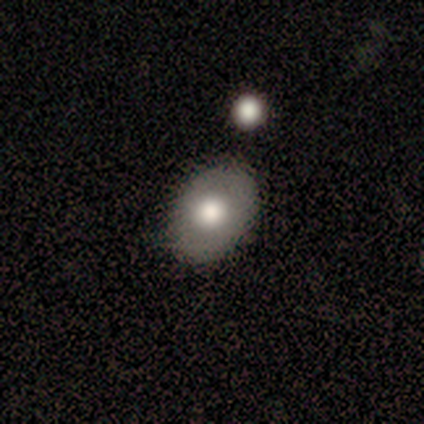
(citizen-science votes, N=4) Q: Smooth or featured?
A: smooth (100%)
Q: How rounded?
A: round (75%); runner-up: in between (25%)
Q: Merging?
A: none (50%); tied with: minor disturbance (50%)